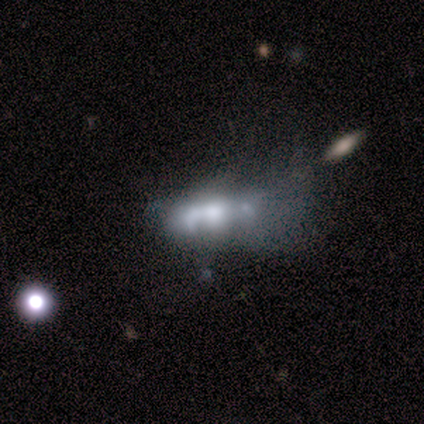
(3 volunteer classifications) smooth 33% (tied), featured or disk 33% (tied), star or artifact 33% (tied). Down the decision tree: how rounded — cigar-shaped (100%); merging — none (50%, tied with major disturbance).